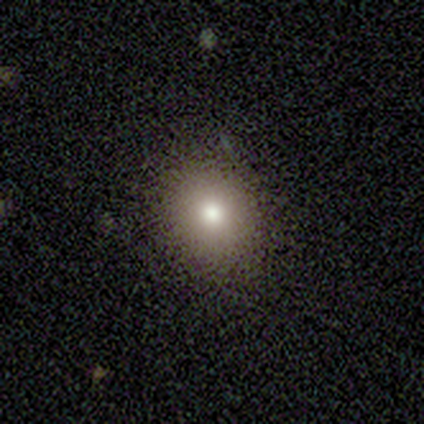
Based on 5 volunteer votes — smooth 80%, star or artifact 20%, featured or disk 0%. Down the decision tree: how rounded — round (75%); merging — none (100%).